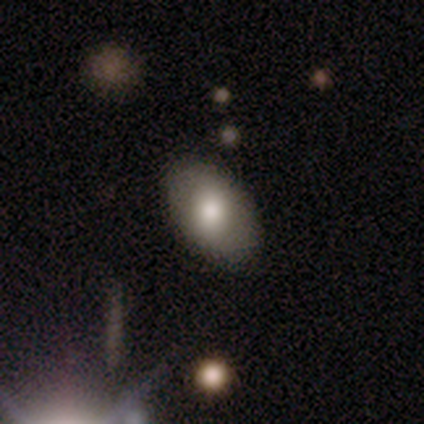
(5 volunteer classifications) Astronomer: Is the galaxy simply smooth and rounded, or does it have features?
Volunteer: smooth — 60%.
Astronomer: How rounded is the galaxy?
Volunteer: in between — 100%.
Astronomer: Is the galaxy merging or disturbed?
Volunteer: none — 100%.